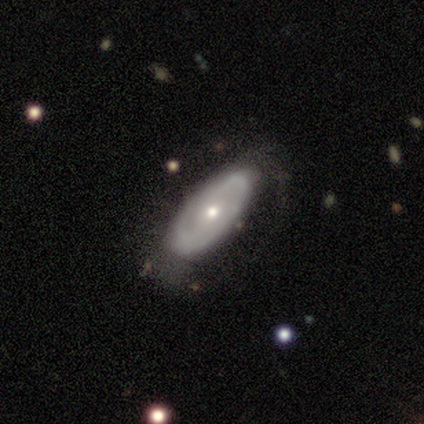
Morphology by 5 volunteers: A featured or disk galaxy (80%) with no bar (100%), 2 (100%) tight (100%) spiral arms (50%, tied with no) and a small central bulge (75%). Merging: none (60%).